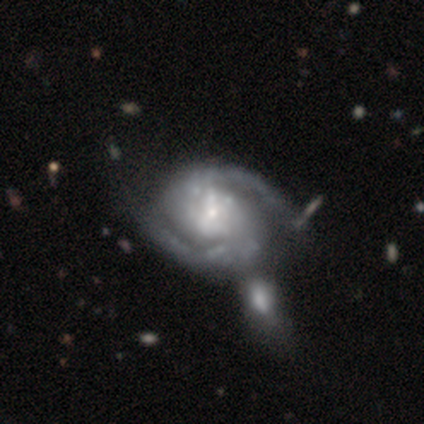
A featured or disk galaxy (97%) with no bar (65%), 2 (92%) medium (62%) spiral arms (100%) and a small central bulge (62%). Merging: merger (34%).